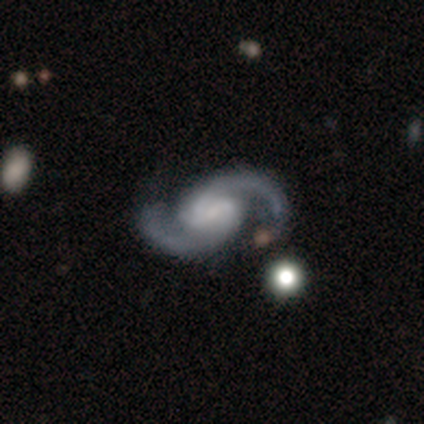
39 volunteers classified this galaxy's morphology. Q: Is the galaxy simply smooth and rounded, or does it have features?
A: featured or disk — 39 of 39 (100%).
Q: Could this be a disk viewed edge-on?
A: no — 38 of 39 (97%).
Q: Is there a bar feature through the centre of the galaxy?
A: weak — 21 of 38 (55%).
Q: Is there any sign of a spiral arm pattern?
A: yes — 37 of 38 (97%).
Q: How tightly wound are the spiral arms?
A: medium — 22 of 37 (59%).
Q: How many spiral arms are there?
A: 2 — 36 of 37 (97%).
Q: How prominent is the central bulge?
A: small — 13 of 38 (34%).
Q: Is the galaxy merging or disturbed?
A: none — 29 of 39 (74%).